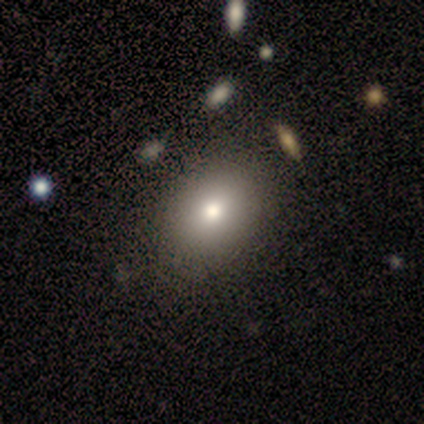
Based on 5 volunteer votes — This is clearly a smooth galaxy (80%). How rounded: likely in between (75%). Merging: clearly none (100%).